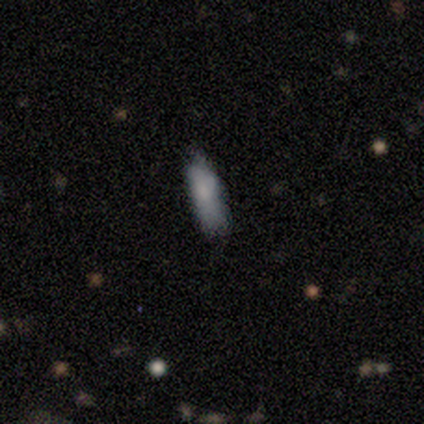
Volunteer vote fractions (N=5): A smooth galaxy with no disk features (100%) that is in between round and cigar-shaped (80%).

Vote fractions:
- Smooth or featured? smooth: 100% / featured or disk: 0% / star or artifact: 0%
- How rounded? in between: 80% / cigar-shaped: 20% / round: 0%
- Merging? none: 60% / minor disturbance: 40% / major disturbance: 0% / merger: 0%